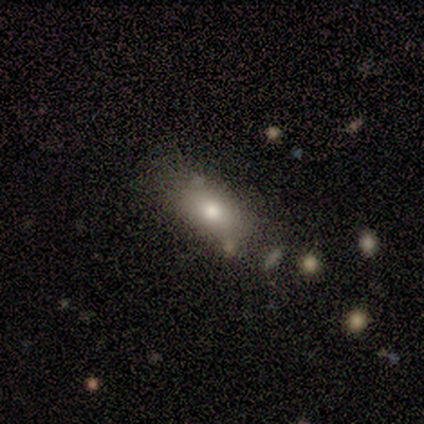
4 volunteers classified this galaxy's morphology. Q: Smooth or featured?
A: smooth (100%)
Q: How rounded?
A: in between (75%); runner-up: round (25%)
Q: Merging?
A: none (50%); tied with: minor disturbance (50%)